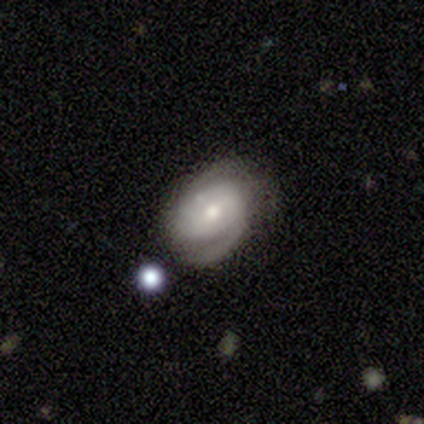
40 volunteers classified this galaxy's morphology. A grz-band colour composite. It shows a featured or disk galaxy (78%) with a weak bar (50%), 2 (60%) tight (50%) spiral arms (100%) and a moderate central bulge (70%). Merging: none (57%).